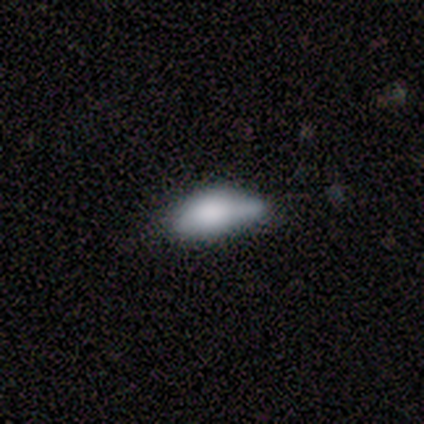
Morphology: type=smooth (60%); roundness=in between (100%); merging=none (50%, tied with minor disturbance).